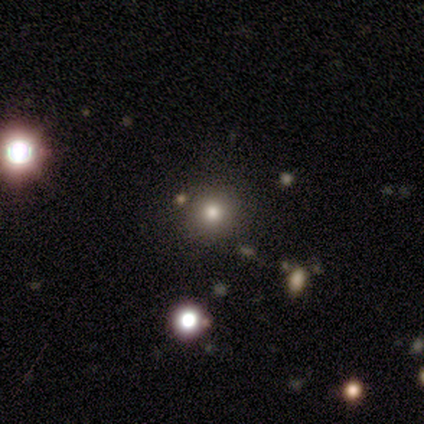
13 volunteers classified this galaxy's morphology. Smooth or featured? smooth (62%)
How rounded? round (100%)
Merging? none (91%)